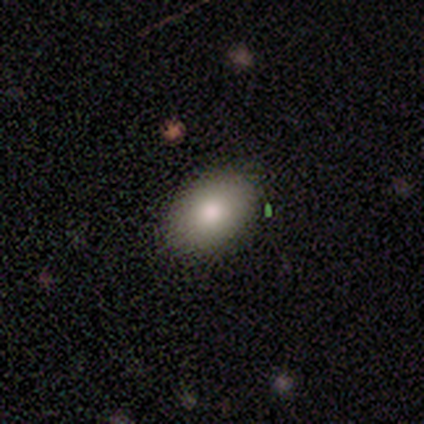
Volunteers were most divided on "merging" (2-way tie): none: 50%, minor disturbance: 50%, major disturbance: 0%, merger: 0%. More confident: how rounded — in between (100%); smooth or featured — smooth (60%).